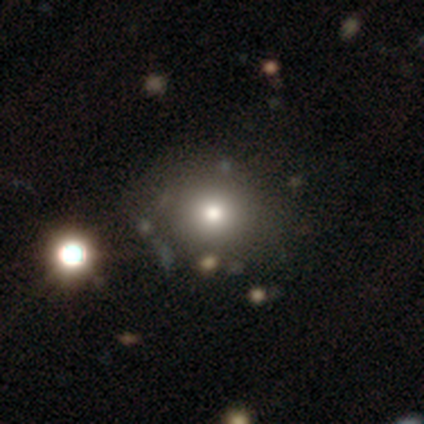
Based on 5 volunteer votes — Smooth or featured?
  - star or artifact: 60% *
  - smooth: 40%
  - featured or disk: 0%